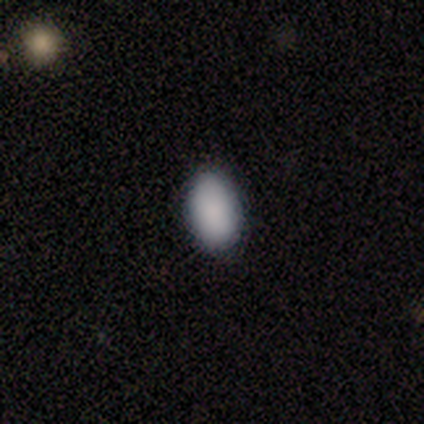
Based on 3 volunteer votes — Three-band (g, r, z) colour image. It shows a smooth galaxy with no disk features (100%) that is in between round and cigar-shaped (100%). Merging: none (67%).